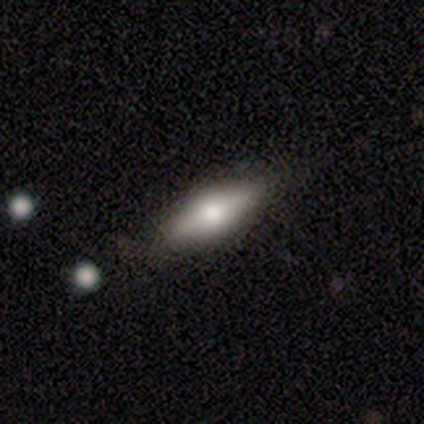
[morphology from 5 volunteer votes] Smooth or featured: smooth — 100%
How rounded: in between — 60% (cigar-shaped — 40%)
Merging: none — 100%